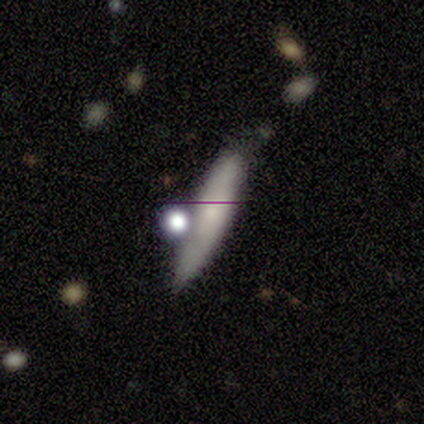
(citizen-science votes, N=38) This appears to be a smooth galaxy with no disk features (47%) that is cigar-shaped (83%). Merging: none (49%).